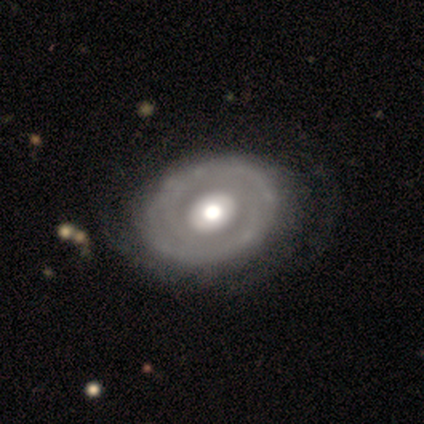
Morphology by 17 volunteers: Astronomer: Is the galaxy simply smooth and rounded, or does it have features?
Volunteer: featured or disk — 65%.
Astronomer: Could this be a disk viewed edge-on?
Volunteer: no — 91%.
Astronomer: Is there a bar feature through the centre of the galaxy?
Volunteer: no — 60%.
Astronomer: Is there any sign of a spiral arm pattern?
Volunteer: yes — 60% (runner-up: no, 40%).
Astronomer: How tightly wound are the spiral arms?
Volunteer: tight — 83%.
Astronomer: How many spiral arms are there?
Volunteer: can't tell — 50% (runner-up: 1, 33%).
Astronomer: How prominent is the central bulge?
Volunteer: moderate — 50% (runner-up: large, 40%).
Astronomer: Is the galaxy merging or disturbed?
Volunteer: none — 71%.